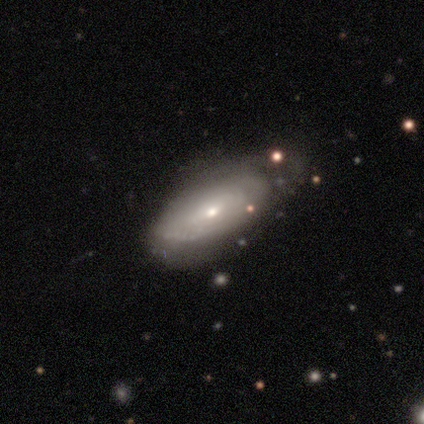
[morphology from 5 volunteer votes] Volunteers were most divided on "merging" (2-way tie): none: 40%, minor disturbance: 40%, major disturbance: 20%, merger: 0%. More confident: edge-on disk — no (100%); spiral winding — tight (100%); spiral arm count — can't tell (100%); smooth or featured — featured or disk (80%); bar — no (75%); spiral arms — yes (75%); bulge size — small (75%).